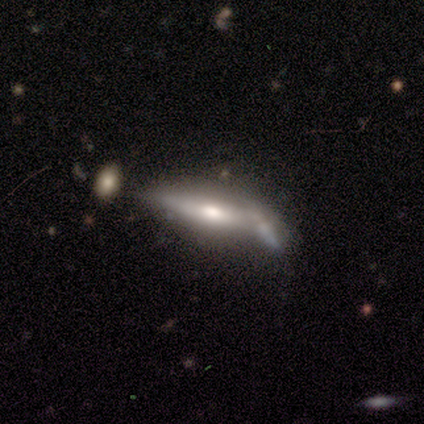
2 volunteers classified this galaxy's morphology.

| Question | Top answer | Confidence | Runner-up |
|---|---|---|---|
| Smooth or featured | smooth | 50% | tied: featured or disk (50%) |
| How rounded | cigar-shaped | 100% | — |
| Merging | none | 50% | tied: merger (50%) |